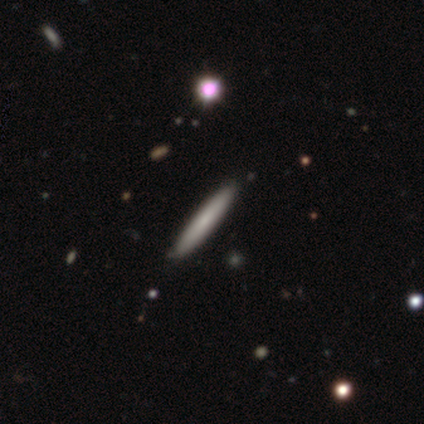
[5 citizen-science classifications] Volunteers were most divided on "edge-on bulge": none: 67%, rounded: 33%, boxy: 0%. More confident: edge-on disk — yes (100%); merging — none (100%); smooth or featured — featured or disk (60%).